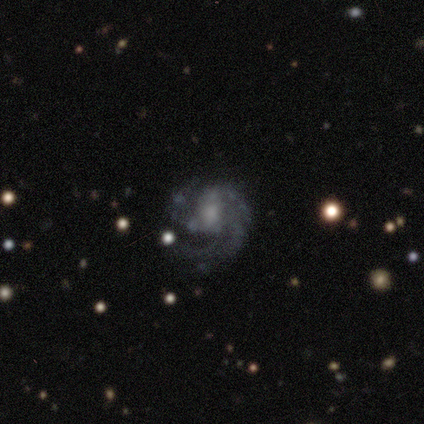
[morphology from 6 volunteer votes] featured or disk 50%, smooth 33%, star or artifact 17%. Down the decision tree: edge-on disk — no (100%); bar — no (67%); spiral arms — yes (100%); spiral arm count — 1 (33%, tied with 2 and can't tell); spiral winding — tight (33%, tied with medium and loose); bulge size — moderate (67%); merging — major disturbance (60%).